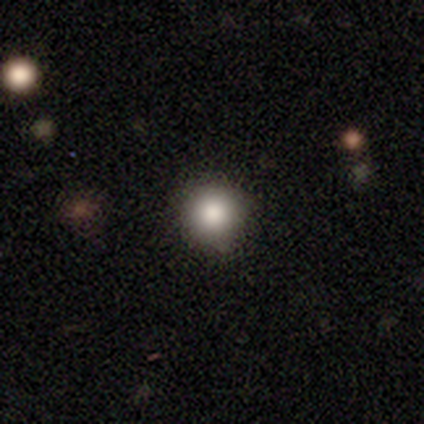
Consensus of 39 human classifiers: Q: Smooth or featured?
A: smooth (87%); runner-up: star or artifact (8%)
Q: How rounded?
A: round (94%); runner-up: in between (6%)
Q: Merging?
A: none (83%); runner-up: minor disturbance (14%)